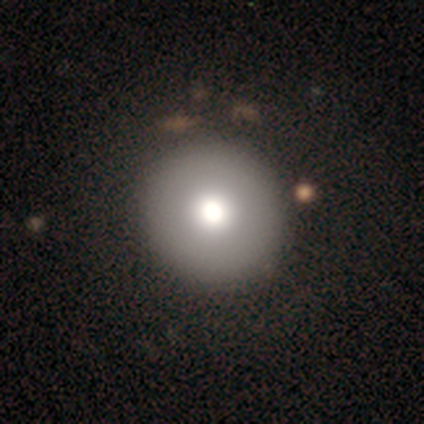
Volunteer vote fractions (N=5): Overall: smooth (100%). How rounded: round (80%). Merging: none (100%).